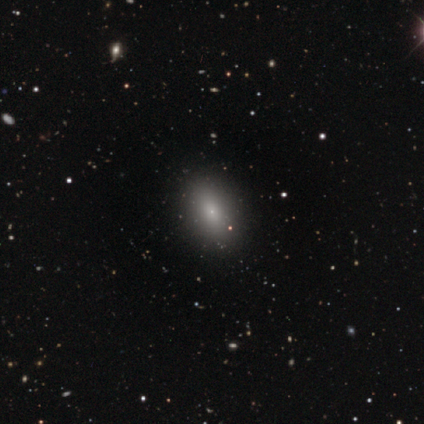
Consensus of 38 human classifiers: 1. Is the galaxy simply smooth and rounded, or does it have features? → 71% smooth, 16% featured or disk, 13% star or artifact.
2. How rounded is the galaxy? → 70% in between, 26% round, 4% cigar-shaped.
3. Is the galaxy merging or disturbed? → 85% none, 9% minor disturbance, 6% major disturbance, 0% merger.